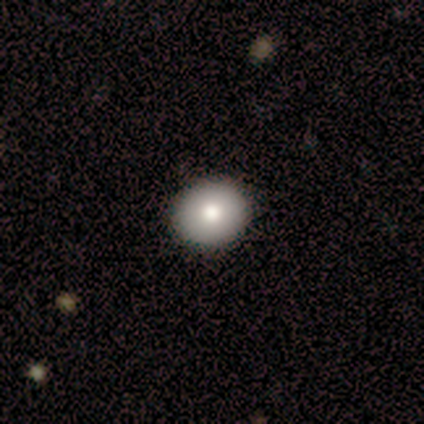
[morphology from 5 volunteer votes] Smooth or featured? 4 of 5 (80%) said smooth. How rounded? 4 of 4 (100%) said round. Merging? 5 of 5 (100%) said none.